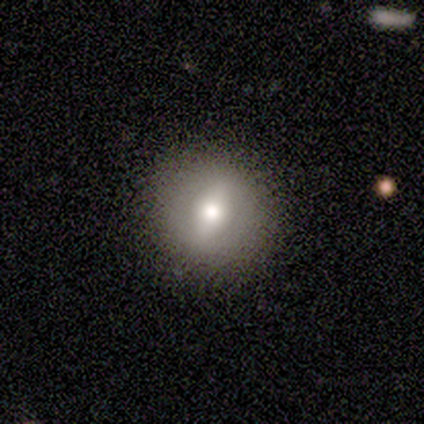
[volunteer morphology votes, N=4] Overall: smooth (50%, tied with featured or disk). How rounded: round (100%). Merging: none (100%).